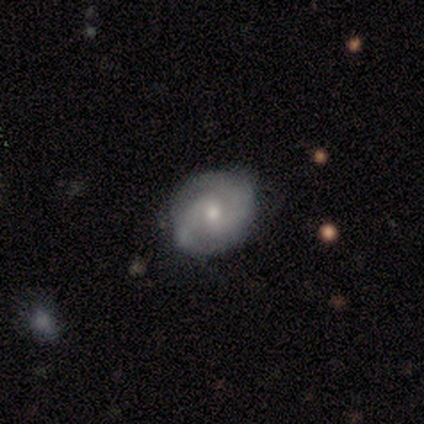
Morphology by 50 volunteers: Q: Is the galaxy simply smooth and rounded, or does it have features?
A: featured or disk — 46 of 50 (92%).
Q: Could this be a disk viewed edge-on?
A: no — 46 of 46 (100%).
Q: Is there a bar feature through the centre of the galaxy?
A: weak — 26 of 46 (57%).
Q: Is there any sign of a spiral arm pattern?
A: yes — 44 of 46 (96%).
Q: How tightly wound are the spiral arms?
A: medium — 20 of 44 (45%).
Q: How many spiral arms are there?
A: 2 — 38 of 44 (86%).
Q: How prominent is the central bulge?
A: moderate — 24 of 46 (52%).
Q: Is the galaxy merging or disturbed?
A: none — 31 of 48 (65%).